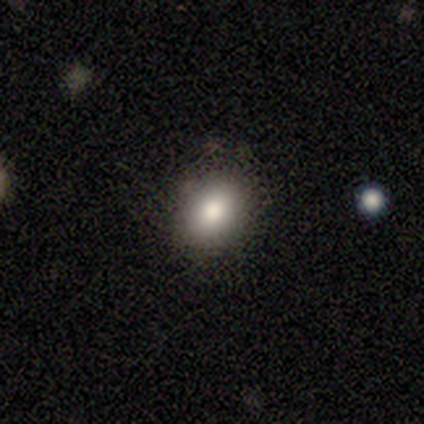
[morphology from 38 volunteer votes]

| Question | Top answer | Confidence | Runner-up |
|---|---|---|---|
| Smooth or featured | smooth | 84% | featured or disk (8%) |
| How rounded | in between | 69% | round (31%) |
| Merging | none | 83% | minor disturbance (14%) |